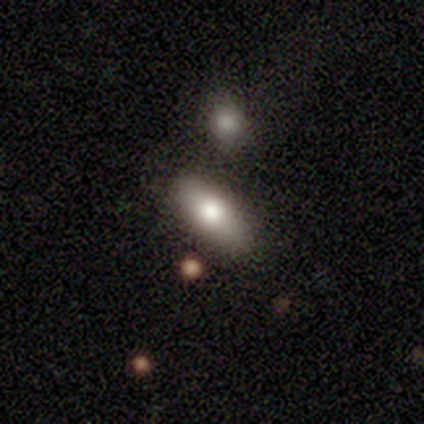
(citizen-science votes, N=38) Smooth or featured? 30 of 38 (79%) said smooth. How rounded? 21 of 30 (70%) said in between. Merging? 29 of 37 (78%) said none.